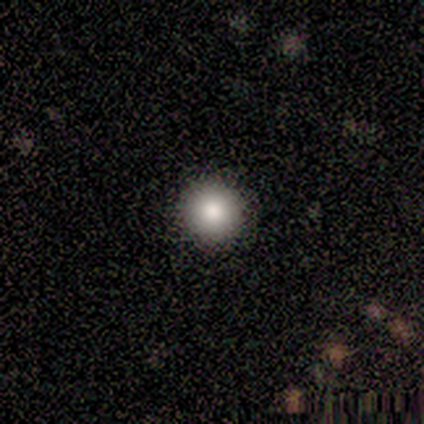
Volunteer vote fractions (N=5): Q: Smooth or featured?
A: smooth (100%)
Q: How rounded?
A: round (100%)
Q: Merging?
A: none (100%)